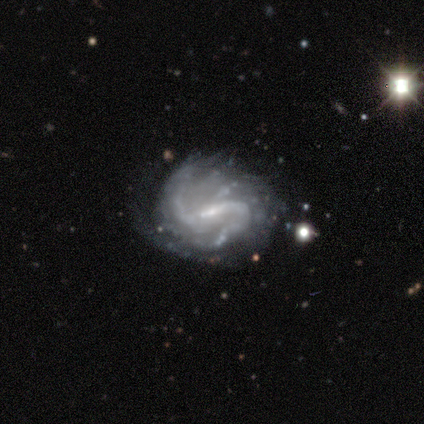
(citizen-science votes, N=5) smooth-or-featured: featured or disk: 100% | smooth: 0% | star or artifact: 0%
  disk-edge-on: no: 100% | yes: 0%
    bar: strong: 40% (tied) | weak: 40% (tied) | no: 20%
    has-spiral-arms: yes: 80% | no: 20%
      spiral-winding: medium: 100% | tight: 0% | loose: 0%
      spiral-arm-count: 2: 100% | 1: 0% | 3: 0% | 4: 0% | more than 4: 0% | can't tell: 0%
    bulge-size: moderate: 40% (tied) | small: 40% (tied) | large: 20% | dominant: 0% | none: 0%
  merging: none: 40% (tied) | major disturbance: 40% (tied) | minor disturbance: 20% | merger: 0%